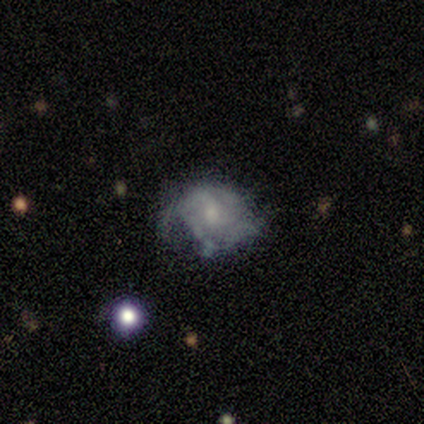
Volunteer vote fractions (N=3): Smooth or featured: featured or disk — 67% (star or artifact — 33%)
Edge-on disk: no — 100%
Bar: weak — 100%
Spiral arms: yes — 50% (tied with no — 50%)
Spiral winding: medium — 100%
Spiral arm count: 2 — 100%
Bulge size: moderate — 50% (tied with none — 50%)
Merging: none — 100%